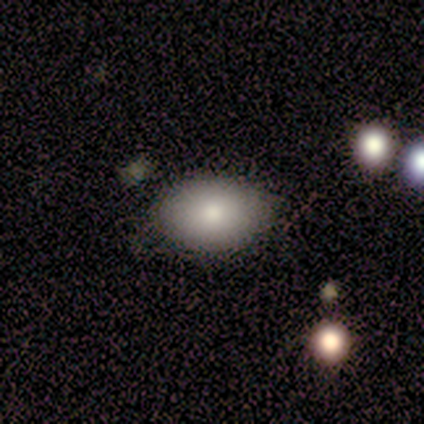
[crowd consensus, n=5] Smooth or featured? smooth (60%)
How rounded? in between (67%)
Merging? none (100%)